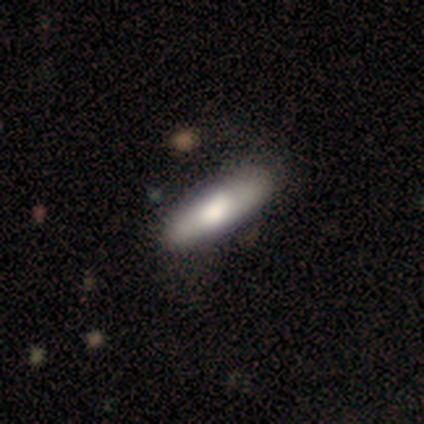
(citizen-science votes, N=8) Volunteers were most divided on "smooth or featured" (2-way tie): smooth: 50%, featured or disk: 50%, star or artifact: 0%; "how rounded" (2-way tie): in between: 50%, cigar-shaped: 50%, round: 0%. More confident: merging — none (88%).